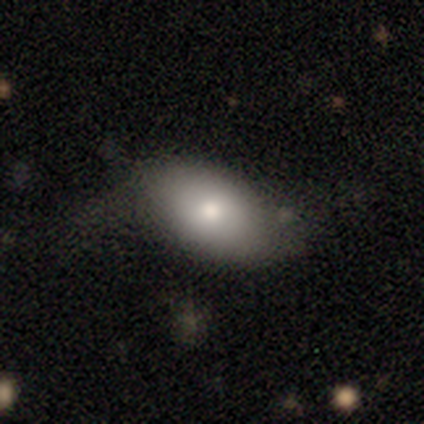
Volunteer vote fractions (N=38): Smooth or featured? smooth (66%)
How rounded? in between (96%)
Merging? none (56%)